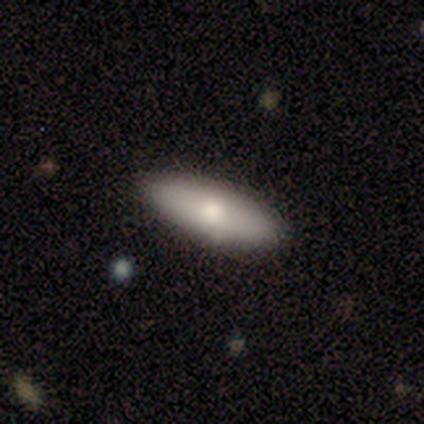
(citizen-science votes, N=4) Overall: smooth (75%). How rounded: in between (67%; cigar-shaped 33%). Merging: none (100%).